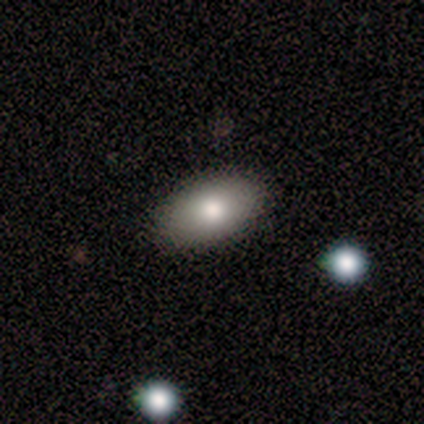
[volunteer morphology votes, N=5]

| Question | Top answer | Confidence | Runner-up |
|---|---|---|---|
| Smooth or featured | smooth | 100% | — |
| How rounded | in between | 100% | — |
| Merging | none | 80% | merger (20%) |